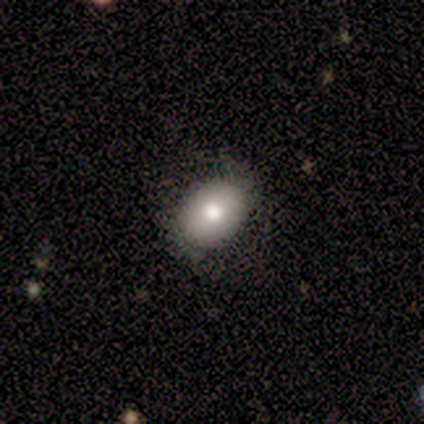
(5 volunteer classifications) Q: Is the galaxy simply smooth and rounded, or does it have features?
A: smooth — 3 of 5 (60%).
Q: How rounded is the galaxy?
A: in between — 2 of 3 (67%).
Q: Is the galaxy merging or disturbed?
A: none — 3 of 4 (75%).